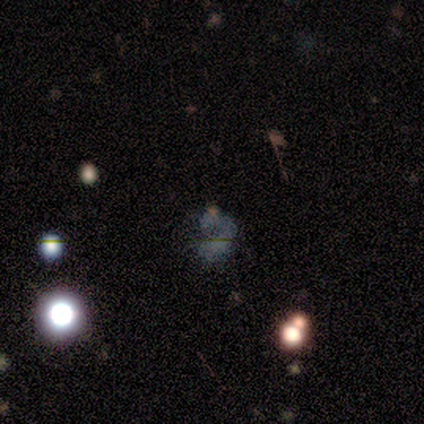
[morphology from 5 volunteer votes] This appears to be a smooth galaxy with no disk features (40%, tied with featured or disk) that is in between round and cigar-shaped (100%). Merging: none (50%).